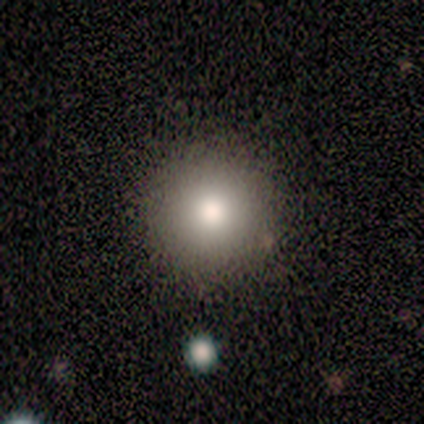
This is clearly a smooth galaxy (86%). How rounded: clearly round (100%). Merging: clearly none (100%).